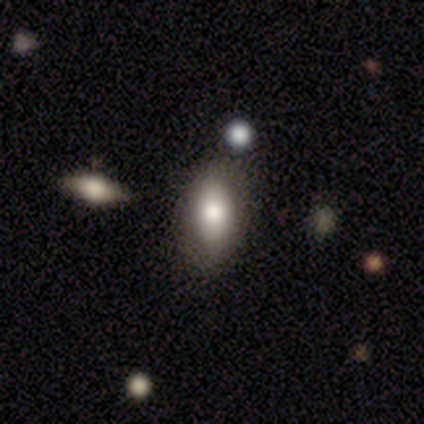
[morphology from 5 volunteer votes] A smooth galaxy with no disk features (80%) that is in between round and cigar-shaped (100%). Merging: none (75%).